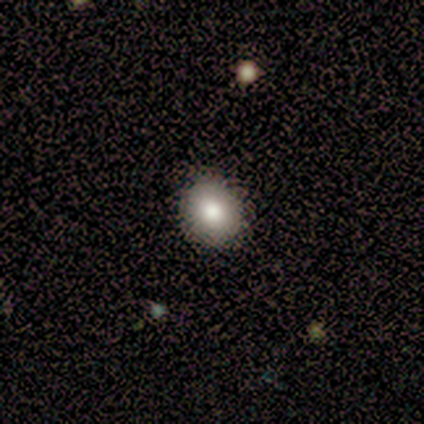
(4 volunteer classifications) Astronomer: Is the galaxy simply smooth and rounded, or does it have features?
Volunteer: smooth — 75%.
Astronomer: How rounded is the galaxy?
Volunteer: round — 100%.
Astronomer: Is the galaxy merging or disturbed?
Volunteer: none — 75%.